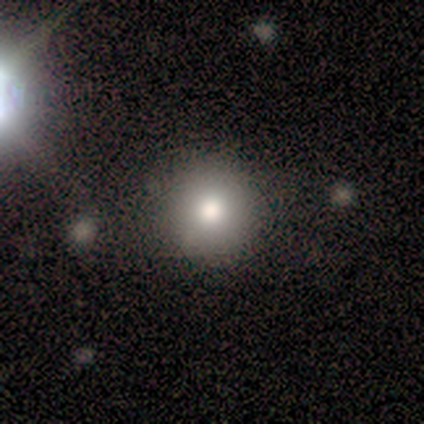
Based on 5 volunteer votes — Overall: smooth (100%). How rounded: round (80%). Merging: none (80%).